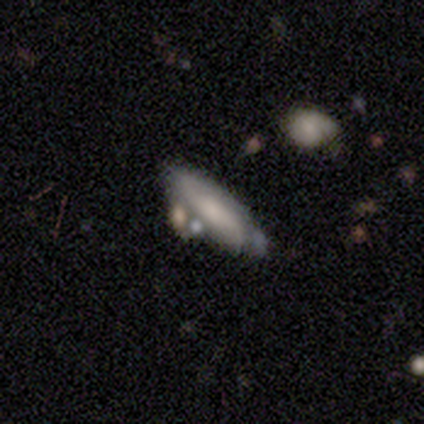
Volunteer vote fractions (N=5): smooth-or-featured: featured or disk: 60% | smooth: 40% | star or artifact: 0%
  disk-edge-on: yes: 67% | no: 33%
    edge-on-bulge: rounded: 100% | boxy: 0% | none: 0%
  merging: none: 60% | merger: 40% | minor disturbance: 0% | major disturbance: 0%